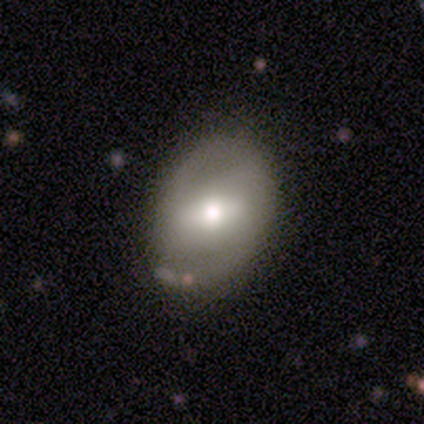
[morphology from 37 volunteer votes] This is possibly a smooth galaxy (51%). How rounded: possibly in between (47%). Merging: clearly none (84%).